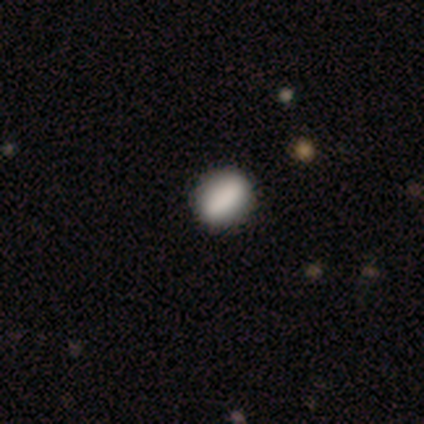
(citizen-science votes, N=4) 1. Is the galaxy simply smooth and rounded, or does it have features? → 100% smooth, 0% featured or disk, 0% star or artifact.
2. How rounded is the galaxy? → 75% in between, 25% round, 0% cigar-shaped.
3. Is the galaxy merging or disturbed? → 100% none, 0% minor disturbance, 0% major disturbance, 0% merger.